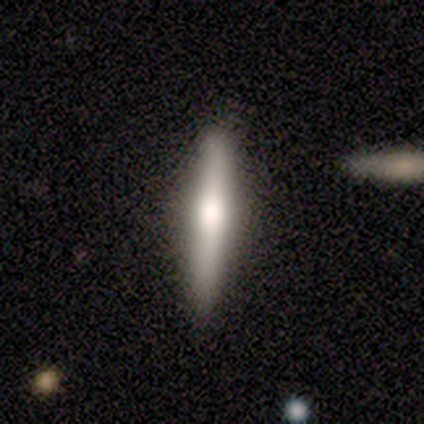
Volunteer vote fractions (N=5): Overall: smooth (40%, tied with featured or disk). How rounded: cigar-shaped (100%). Merging: none (75%).